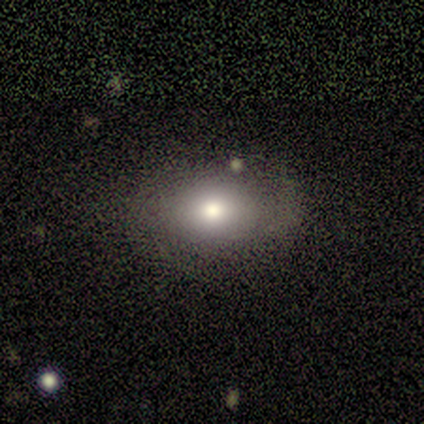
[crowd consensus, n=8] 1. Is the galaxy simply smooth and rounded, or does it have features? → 75% smooth, 25% featured or disk, 0% star or artifact.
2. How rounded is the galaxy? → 83% in between, 17% round, 0% cigar-shaped.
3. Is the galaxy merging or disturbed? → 88% none, 12% minor disturbance, 0% major disturbance, 0% merger.